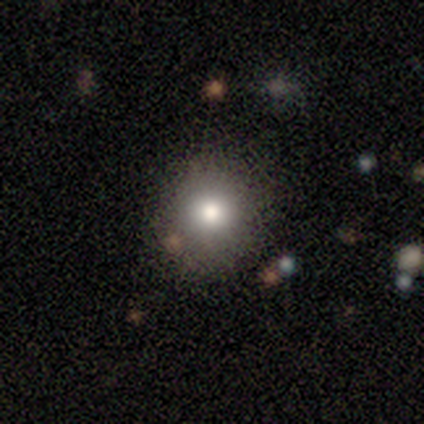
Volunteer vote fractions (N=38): Smooth or featured: smooth — 76% (star or artifact — 13%)
How rounded: round — 79% (in between — 21%)
Merging: none — 76% (minor disturbance — 18%)